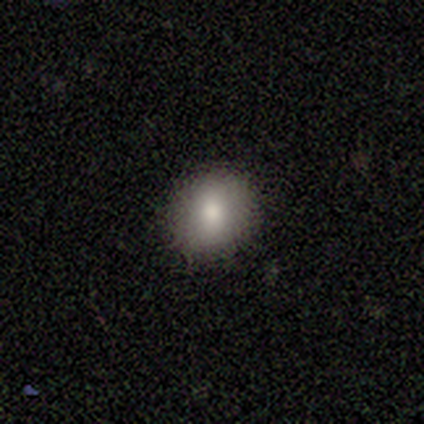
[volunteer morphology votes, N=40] A smooth galaxy with no disk features (82%) that is round (82%). Merging: none (83%).